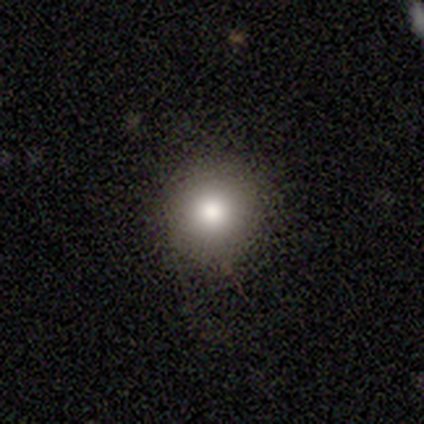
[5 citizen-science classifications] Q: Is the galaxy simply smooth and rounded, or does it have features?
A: smooth — 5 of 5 (100%).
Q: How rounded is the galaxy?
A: round — 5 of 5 (100%).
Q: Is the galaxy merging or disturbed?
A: none — 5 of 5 (100%).